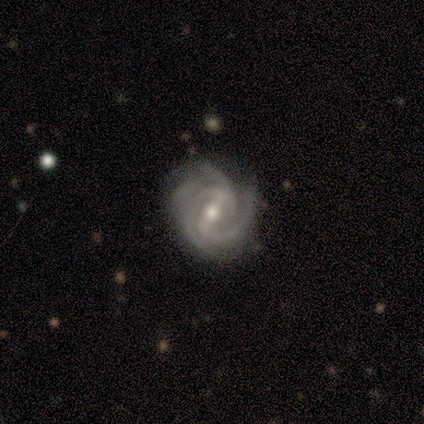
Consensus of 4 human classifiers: featured or disk 75%, smooth 25%, star or artifact 0%. Down the decision tree: edge-on disk — no (100%); bar — strong (67%); spiral arms — yes (100%); spiral arm count — 2 (33%, tied with 4 and can't tell); spiral winding — medium (67%); bulge size — moderate (67%); merging — none (75%).